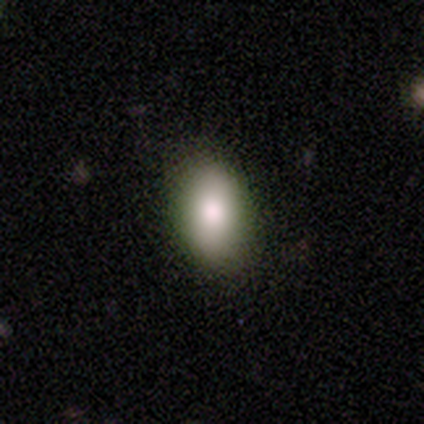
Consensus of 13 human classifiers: A smooth galaxy with no disk features (54%) that is in between round and cigar-shaped (86%).

Vote fractions:
- Smooth or featured? smooth: 54% / featured or disk: 23% / star or artifact: 23%
- How rounded? in between: 86% / round: 14% / cigar-shaped: 0%
- Merging? none: 80% / minor disturbance: 20% / major disturbance: 0% / merger: 0%